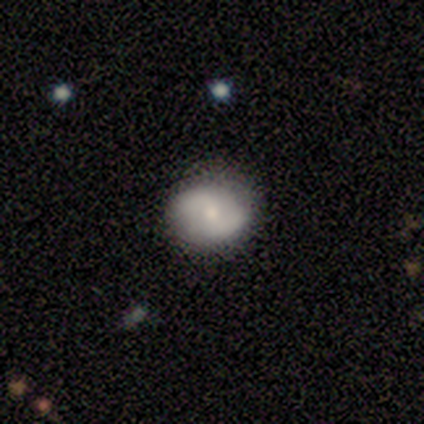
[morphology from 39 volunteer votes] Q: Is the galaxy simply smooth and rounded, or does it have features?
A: featured or disk — 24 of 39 (62%).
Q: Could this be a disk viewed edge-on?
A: no — 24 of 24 (100%).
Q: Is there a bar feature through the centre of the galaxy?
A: no — 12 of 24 (50%).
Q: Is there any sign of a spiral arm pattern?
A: yes — 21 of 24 (88%).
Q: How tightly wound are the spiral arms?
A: medium — 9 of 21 (43%).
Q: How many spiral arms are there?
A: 2 — 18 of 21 (86%).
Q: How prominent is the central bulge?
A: small — 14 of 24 (58%).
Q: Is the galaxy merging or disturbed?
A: none — 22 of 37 (59%).